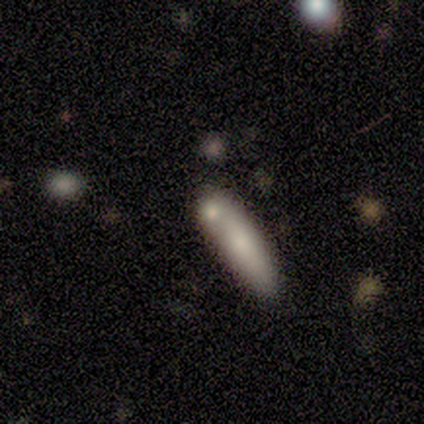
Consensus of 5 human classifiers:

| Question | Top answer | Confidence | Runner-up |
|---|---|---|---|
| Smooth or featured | smooth | 60% | featured or disk (20%) |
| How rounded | round | 33% | tied: in between (33%), cigar-shaped (33%) |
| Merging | merger | 50% | none (25%) |